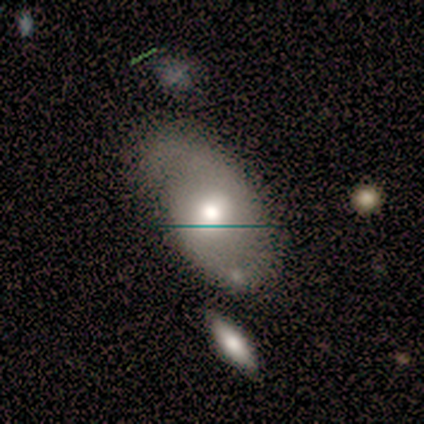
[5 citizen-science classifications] Overall: smooth (80%). How rounded: in between (100%). Merging: minor disturbance (60%; none 40%).